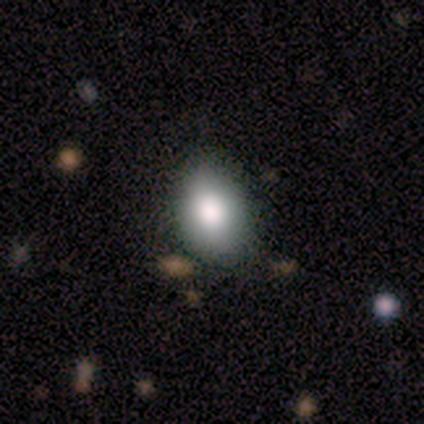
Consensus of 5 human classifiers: Smooth or featured? smooth (100%)
How rounded? in between (60%)
Merging? none (60%)